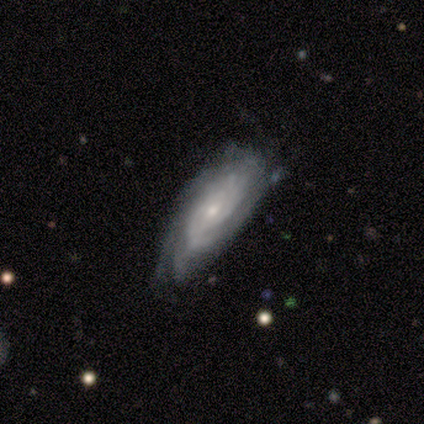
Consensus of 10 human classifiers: This appears to be a featured or disk galaxy (80%) with no bar (75%), tight (88%) spiral arms (100%) and a small central bulge (62%). Merging: none (60%).